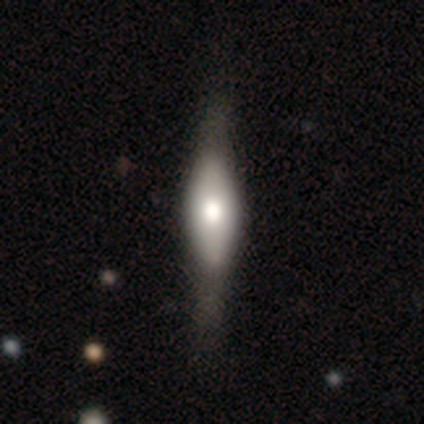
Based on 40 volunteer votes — Smooth or featured?
  - smooth: 55% *
  - featured or disk: 45%
  - star or artifact: 0%
How rounded?
  - in between: 59% *
  - cigar-shaped: 41%
  - round: 0%
Merging?
  - none: 52% *
  - minor disturbance: 15%
  - major disturbance: 10%
  - merger: 0%